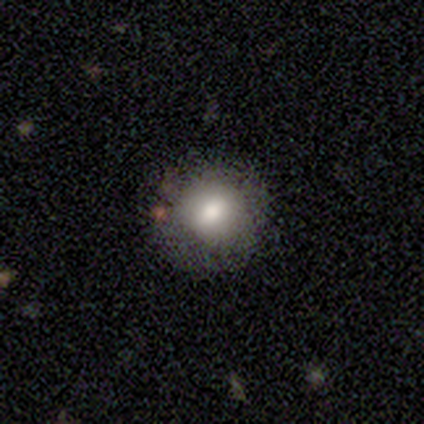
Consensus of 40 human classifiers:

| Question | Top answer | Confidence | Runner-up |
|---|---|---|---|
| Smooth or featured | smooth | 68% | featured or disk (22%) |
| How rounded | round | 85% | in between (11%) |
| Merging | none | 75% | minor disturbance (14%) |